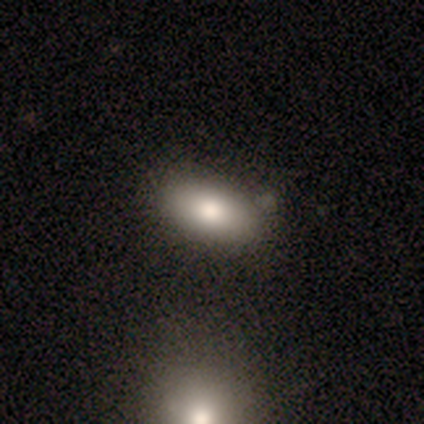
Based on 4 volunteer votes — featured or disk 50%, smooth 25%, star or artifact 25%. Down the decision tree: edge-on disk — no (100%); bar — no (100%); spiral arms — no (100%); bulge size — large (50%, tied with moderate); merging — none (67%).